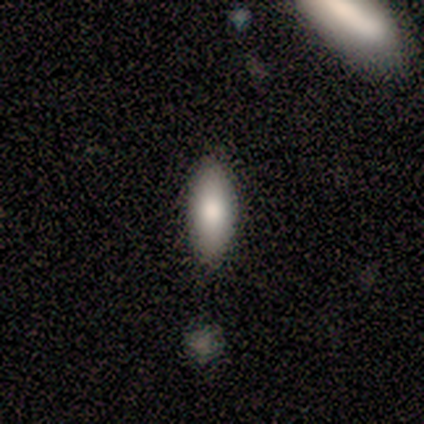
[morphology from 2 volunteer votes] smooth-or-featured: smooth: 50% (tied) | featured or disk: 50% (tied) | star or artifact: 0%
  how-rounded: in between: 100% | round: 0% | cigar-shaped: 0%
  merging: none: 100% | minor disturbance: 0% | major disturbance: 0% | merger: 0%